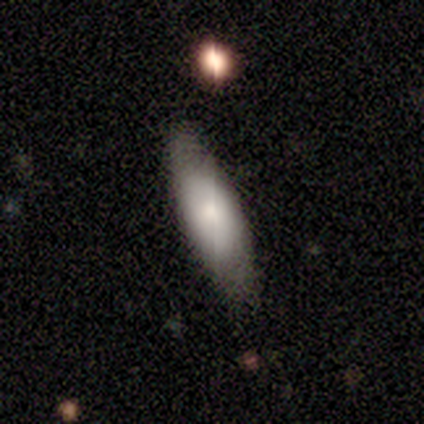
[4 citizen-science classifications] Overall: smooth (75%). How rounded: in between (100%). Merging: none (100%).